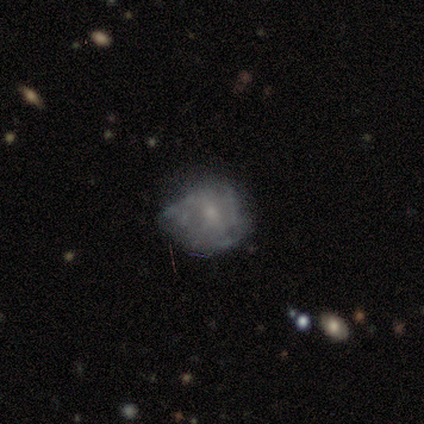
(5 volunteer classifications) Q: Smooth or featured?
A: featured or disk (100%)
Q: Edge-on disk?
A: no (100%)
Q: Bar?
A: no (60%); runner-up: weak (40%)
Q: Spiral arms?
A: no (60%); runner-up: yes (40%)
Q: Bulge size?
A: small (100%)
Q: Merging?
A: minor disturbance (60%); runner-up: major disturbance (40%)